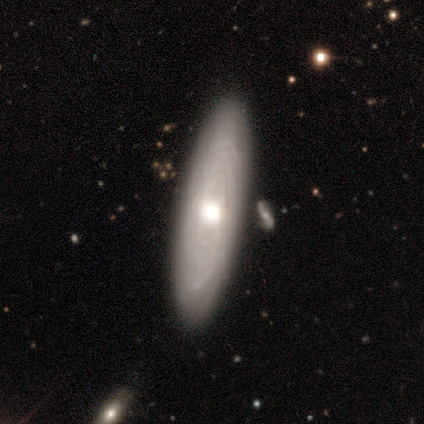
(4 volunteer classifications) Morphology: type=smooth (50%, tied with featured or disk); roundness=in between (50%, tied with cigar-shaped); merging=none (100%).